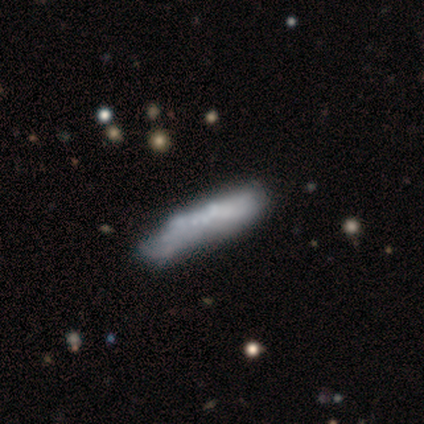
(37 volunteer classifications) Volunteers were most divided on "smooth or featured": featured or disk: 62%, smooth: 32%, star or artifact: 5%. More confident: spiral arms — no (88%); bulge size — none (88%); bar — no (81%); edge-on disk — no (70%); merging — none (66%).